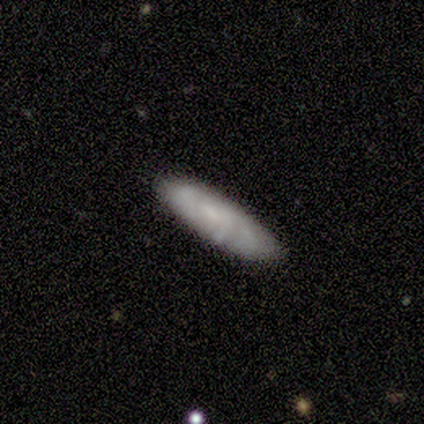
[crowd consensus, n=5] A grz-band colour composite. It shows a featured or disk galaxy (60%) with no bar (100%), medium (100%) spiral arms (50%, tied with no) and a small central bulge (50%, tied with none). Merging: none (80%).